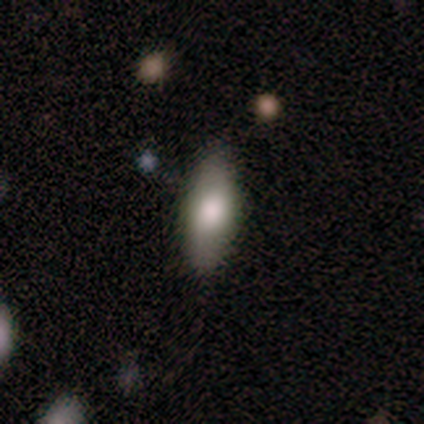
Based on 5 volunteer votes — Smooth or featured: smooth — 40% (tied with featured or disk — 40%)
How rounded: in between — 100%
Merging: none — 75% (minor disturbance — 25%)